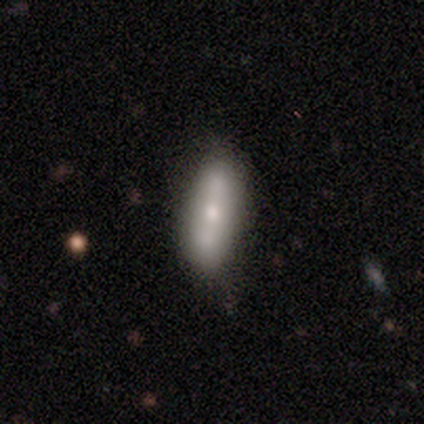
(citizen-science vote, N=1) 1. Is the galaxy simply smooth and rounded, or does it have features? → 100% smooth, 0% featured or disk, 0% star or artifact.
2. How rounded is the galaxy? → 100% in between, 0% round, 0% cigar-shaped.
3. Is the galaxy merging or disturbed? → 100% none, 0% minor disturbance, 0% major disturbance, 0% merger.